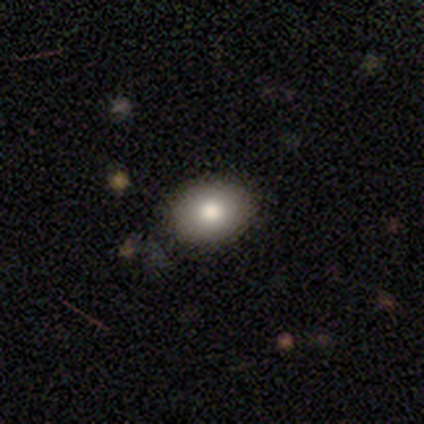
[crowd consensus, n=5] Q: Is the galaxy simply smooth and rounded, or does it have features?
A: smooth — 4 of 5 (80%).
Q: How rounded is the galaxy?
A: round — 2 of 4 (50%, tied with in between).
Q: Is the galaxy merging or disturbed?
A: none — 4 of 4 (100%).